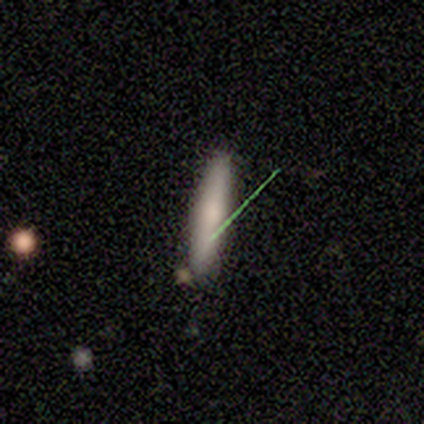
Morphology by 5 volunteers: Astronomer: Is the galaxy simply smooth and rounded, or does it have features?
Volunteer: smooth — 80%.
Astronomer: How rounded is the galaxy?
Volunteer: cigar-shaped — 100%.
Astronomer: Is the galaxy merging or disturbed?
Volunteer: none — 100%.